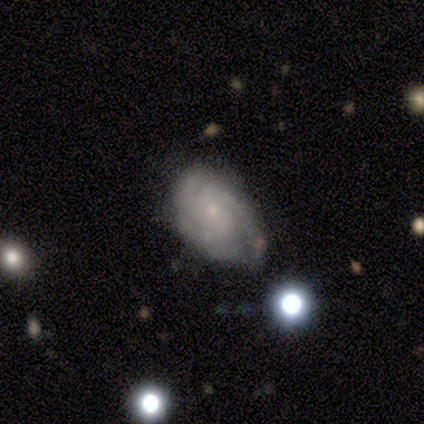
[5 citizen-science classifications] Q: Smooth or featured?
A: featured or disk (100%)
Q: Edge-on disk?
A: no (100%)
Q: Bar?
A: no (60%); runner-up: weak (40%)
Q: Spiral arms?
A: yes (100%)
Q: Spiral winding?
A: tight (60%); runner-up: medium (40%)
Q: Spiral arm count?
A: 3 (80%); runner-up: 4 (20%)
Q: Bulge size?
A: moderate (60%); runner-up: small (40%)
Q: Merging?
A: minor disturbance (100%)